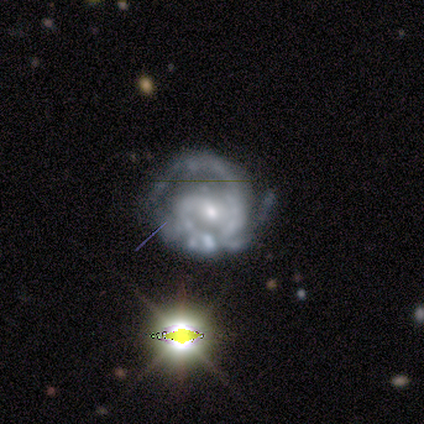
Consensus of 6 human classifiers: smooth_or_featured: featured or disk (p=1.00)
disk_edge_on: no (p=1.00)
bar: no (p=0.50) [alt: weak p=0.33]
has_spiral_arms: yes (p=0.83) [alt: no p=0.17]
spiral_winding: tight (p=0.60) [alt: medium p=0.40]
spiral_arm_count: 2 (p=0.60) [alt: 3 p=0.40]
bulge_size: small (p=0.83) [alt: moderate p=0.17]
merging: none (p=0.50) [alt: minor disturbance p=0.33]